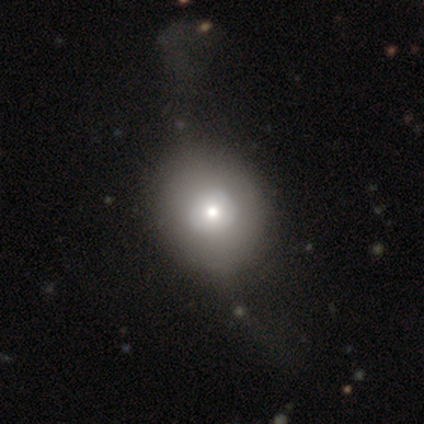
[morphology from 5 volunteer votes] This is likely a featured or disk galaxy (60%). It is clearly not viewed edge-on (100%). Bar: clearly no (100%). Spiral arm pattern: likely no (67%). Central bulge: clearly small (100%). Merging: likely none (60%).